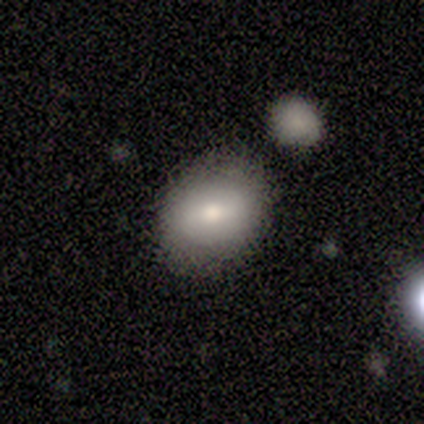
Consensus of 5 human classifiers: Volunteers were most divided on "how rounded" (2-way tie): round: 50%, in between: 50%, cigar-shaped: 0%. More confident: merging — none (100%); smooth or featured — smooth (80%).